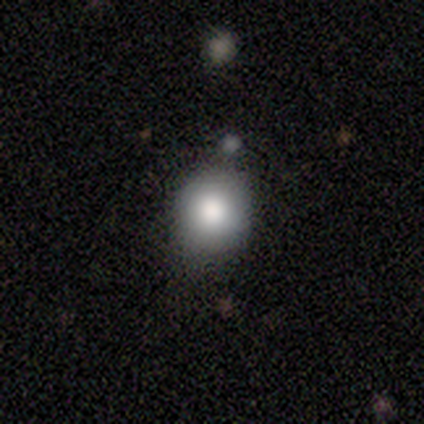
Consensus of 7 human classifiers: Volunteers were most divided on "how rounded": round: 83%, in between: 17%, cigar-shaped: 0%. More confident: smooth or featured — smooth (86%); merging — none (86%).